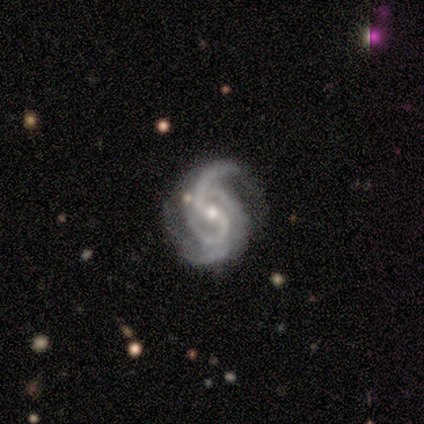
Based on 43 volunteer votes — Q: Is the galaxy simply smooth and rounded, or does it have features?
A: featured or disk — 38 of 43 (88%).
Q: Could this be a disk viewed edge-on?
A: no — 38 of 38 (100%).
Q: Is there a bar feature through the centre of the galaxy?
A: weak — 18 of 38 (47%).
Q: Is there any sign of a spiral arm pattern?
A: yes — 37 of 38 (97%).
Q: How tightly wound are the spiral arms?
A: medium — 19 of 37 (51%).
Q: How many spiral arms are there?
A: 2 — 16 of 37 (43%).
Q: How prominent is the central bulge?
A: small — 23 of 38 (61%).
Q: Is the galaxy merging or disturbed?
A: none — 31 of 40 (78%).